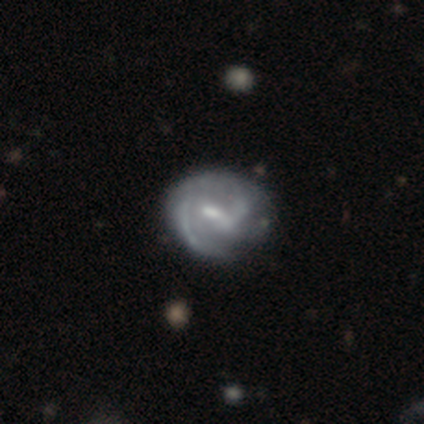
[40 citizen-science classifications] Volunteers were most divided on "bulge size": moderate: 47%, small: 44%, none: 6%, large: 3%, dominant: 0%. Remaining: edge-on disk — no (100%); spiral arms — yes (94%); smooth or featured — featured or disk (90%); bar — weak (72%); spiral winding — medium (53%); spiral arm count — 2 (50%); merging — none (32%).